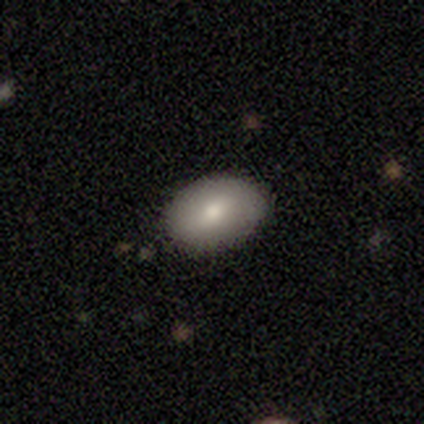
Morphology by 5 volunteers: Smooth or featured: smooth — 80% (star or artifact — 20%)
How rounded: in between — 75% (round — 25%)
Merging: none — 100%